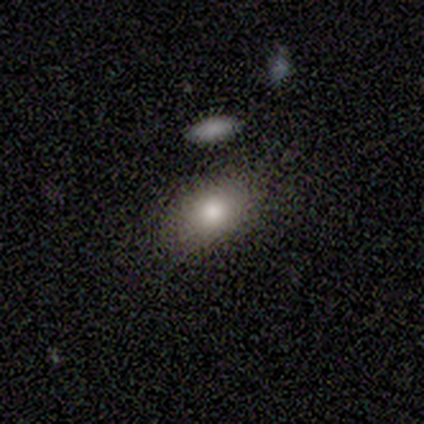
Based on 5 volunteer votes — smooth_or_featured: smooth (p=1.00)
how_rounded: in between (p=1.00)
merging: none (p=1.00)